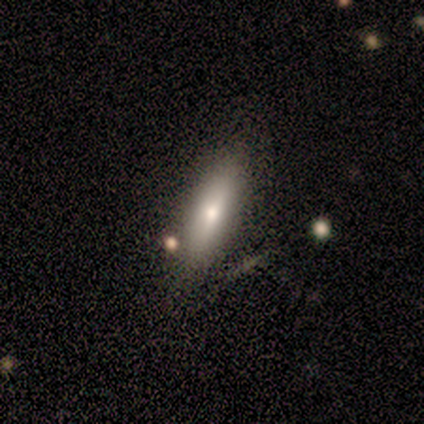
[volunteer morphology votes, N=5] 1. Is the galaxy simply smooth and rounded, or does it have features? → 80% smooth, 20% featured or disk, 0% star or artifact.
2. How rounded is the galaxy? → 100% in between, 0% round, 0% cigar-shaped.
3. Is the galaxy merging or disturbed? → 40% none (tied), 40% merger (tied), 20% minor disturbance, 0% major disturbance.